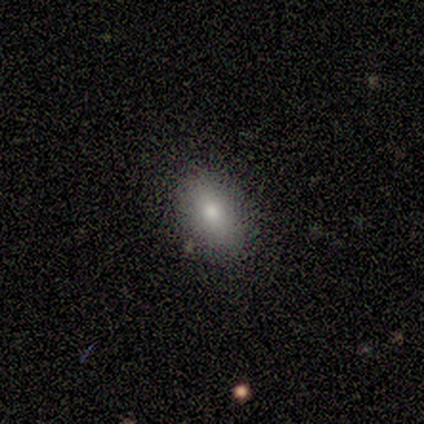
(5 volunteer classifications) smooth-or-featured: smooth: 80% | star or artifact: 20% | featured or disk: 0%
  how-rounded: in between: 100% | round: 0% | cigar-shaped: 0%
  merging: none: 75% | major disturbance: 25% | minor disturbance: 0% | merger: 0%